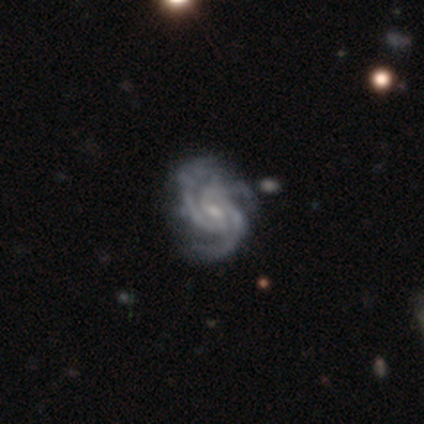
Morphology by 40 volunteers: Q: Smooth or featured?
A: featured or disk (95%); runner-up: smooth (5%)
Q: Edge-on disk?
A: no (97%); runner-up: yes (3%)
Q: Bar?
A: weak (51%); runner-up: no (43%)
Q: Spiral arms?
A: yes (97%); runner-up: no (3%)
Q: Spiral winding?
A: tight (64%); runner-up: medium (33%)
Q: Spiral arm count?
A: 3 (81%); runner-up: 2 (11%)
Q: Bulge size?
A: small (59%); runner-up: moderate (41%)
Q: Merging?
A: none (48%); runner-up: minor disturbance (25%)